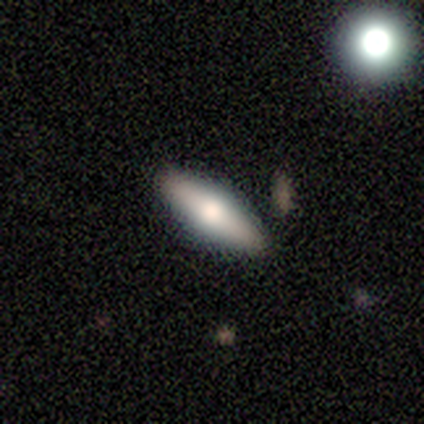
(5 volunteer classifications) Smooth or featured? featured or disk (60%)
Edge-on disk? yes (100%)
Edge-on bulge? rounded (100%)
Merging? none (100%)